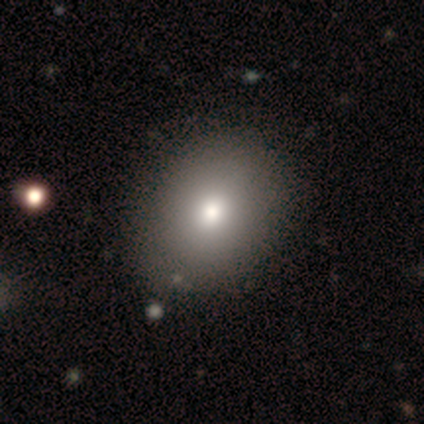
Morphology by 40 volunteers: Smooth or featured?
  - smooth: 78% *
  - featured or disk: 15%
  - star or artifact: 8%
How rounded?
  - in between: 55% *
  - round: 45%
  - cigar-shaped: 0%
Merging?
  - none: 62% *
  - minor disturbance: 8%
  - merger: 3%
  - major disturbance: 0%